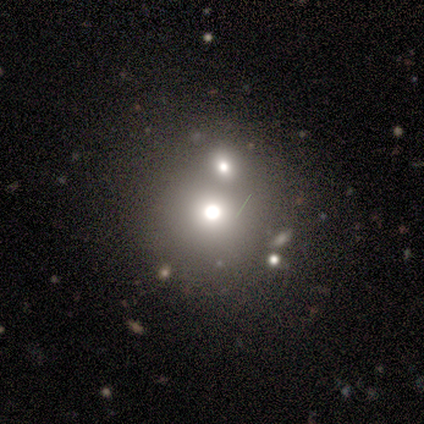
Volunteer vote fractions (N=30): smooth 63%, star or artifact 27%, featured or disk 10%. Down the decision tree: how rounded — round (100%); merging — merger (64%).